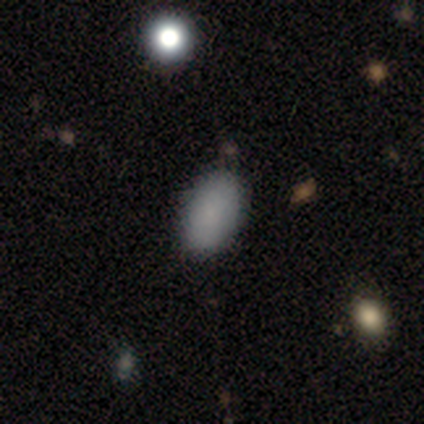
Smooth or featured: smooth — 60% (featured or disk — 20%)
How rounded: in between — 100%
Merging: none — 100%